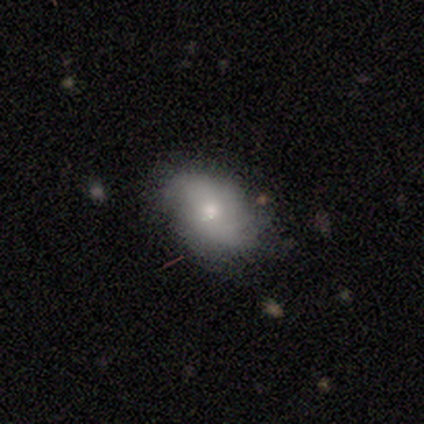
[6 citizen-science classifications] Overall: featured or disk (50%; smooth 33%). Edge-on disk: no (100%). Bar: no (100%). Spiral arms: yes (67%; no 33%). Spiral arm count: 2 (100%). Spiral winding: tight (50%, tied with loose). Bulge size: moderate (67%; small 33%). Merging: none (80%).